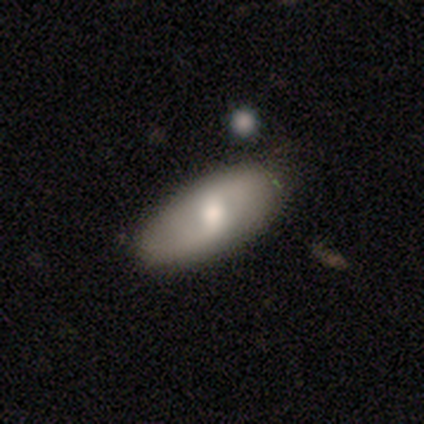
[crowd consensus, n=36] A featured or disk galaxy (50%) with a weak bar (54%), 2 (100%) loose (56%) spiral arms (69%) and a moderate central bulge (69%).

Vote fractions:
- Smooth or featured? featured or disk: 50% / smooth: 47% / star or artifact: 3%
- Edge-on disk? no: 72% / yes: 28%
- Bar? weak: 54% / no: 31% / strong: 15%
- Spiral arms? yes: 69% / no: 31%
- Spiral winding? loose: 56% / tight: 22% / medium: 22%
- Spiral arm count? 2: 100% / 1: 0% / 3: 0% / 4: 0% / more than 4: 0% / can't tell: 0%
- Bulge size? moderate: 69% / large: 31% / dominant: 0% / small: 0% / none: 0%
- Merging? none: 74% / minor disturbance: 23% / major disturbance: 3% / merger: 0%